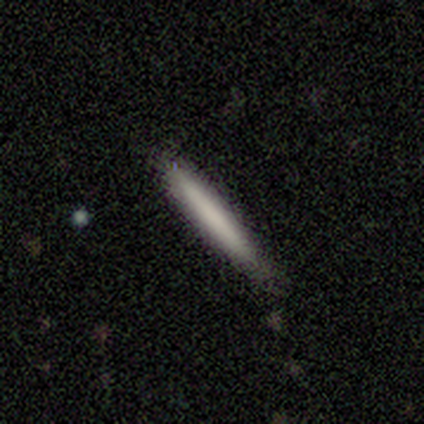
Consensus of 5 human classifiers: Smooth or featured?
  - smooth: 80% *
  - star or artifact: 20%
  - featured or disk: 0%
How rounded?
  - cigar-shaped: 100% *
  - round: 0%
  - in between: 0%
Merging?
  - none: 75% *
  - minor disturbance: 25%
  - major disturbance: 0%
  - merger: 0%